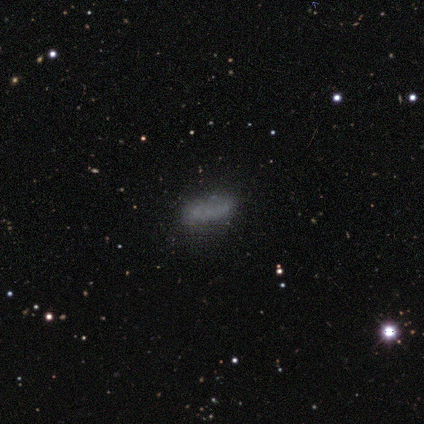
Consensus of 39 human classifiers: Smooth or featured? 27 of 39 (69%) said smooth. How rounded? 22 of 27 (81%) said in between. Merging? 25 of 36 (69%) said none.